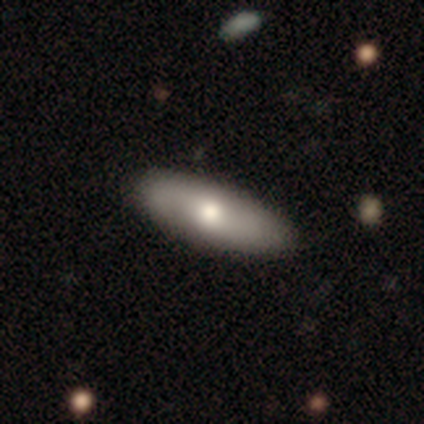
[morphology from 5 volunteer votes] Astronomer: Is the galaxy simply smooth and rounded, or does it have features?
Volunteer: smooth — 100%.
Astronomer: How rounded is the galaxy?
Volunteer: in between — 100%.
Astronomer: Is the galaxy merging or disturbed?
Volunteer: none — 80%.